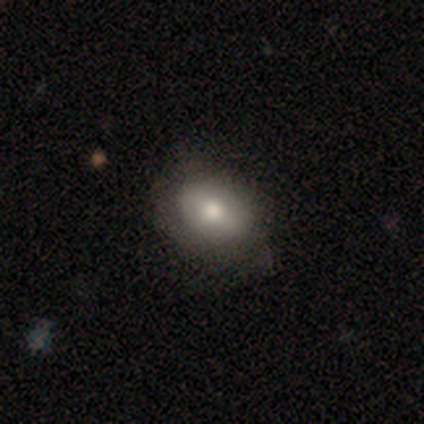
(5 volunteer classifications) Smooth or featured? 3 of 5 (60%) said smooth. How rounded? 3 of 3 (100%) said in between. Merging? 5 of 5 (100%) said none.